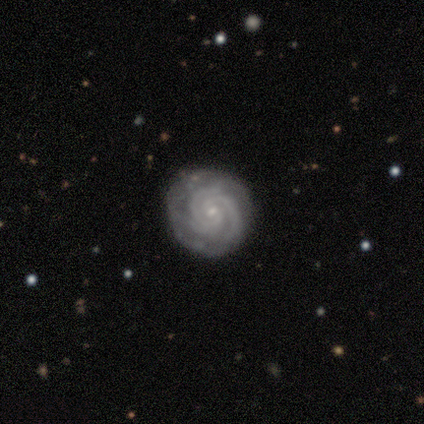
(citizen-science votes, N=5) A featured or disk galaxy (100%) with no bar (60%), 3 (60%) tight (80%) spiral arms (100%) and a small central bulge (80%).

Vote fractions:
- Smooth or featured? featured or disk: 100% / smooth: 0% / star or artifact: 0%
- Edge-on disk? no: 100% / yes: 0%
- Bar? no: 60% / weak: 40% / strong: 0%
- Spiral arms? yes: 100% / no: 0%
- Spiral winding? tight: 80% / medium: 20% / loose: 0%
- Spiral arm count? 3: 60% / 2: 40% / 1: 0% / 4: 0% / more than 4: 0% / can't tell: 0%
- Bulge size? small: 80% / moderate: 20% / dominant: 0% / large: 0% / none: 0%
- Merging? none: 80% / minor disturbance: 20% / major disturbance: 0% / merger: 0%